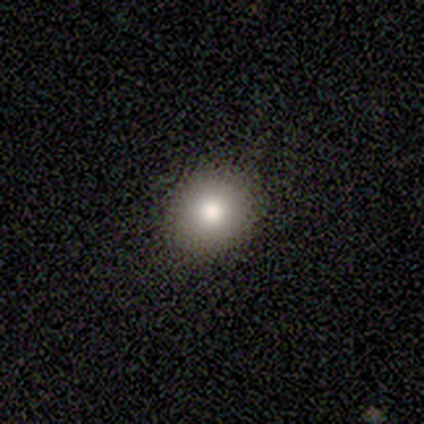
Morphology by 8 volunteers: smooth 88%, featured or disk 12%, star or artifact 0%. Down the decision tree: how rounded — round (86%); merging — none (88%).